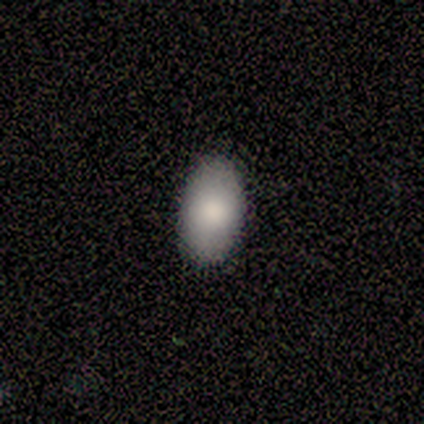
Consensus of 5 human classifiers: Overall: smooth (100%). How rounded: in between (100%). Merging: none (60%; minor disturbance 40%).